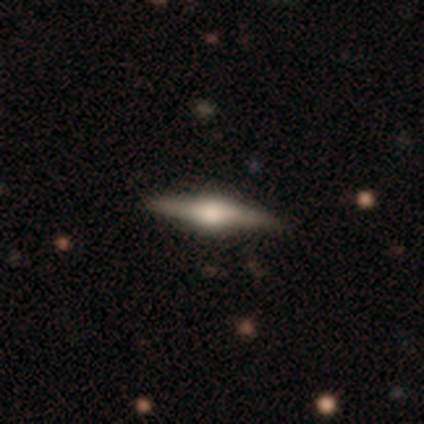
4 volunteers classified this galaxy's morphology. Overall: featured or disk (75%). Edge-on disk: yes (100%). Edge-on bulge: rounded (67%; boxy 33%). Merging: none (100%).